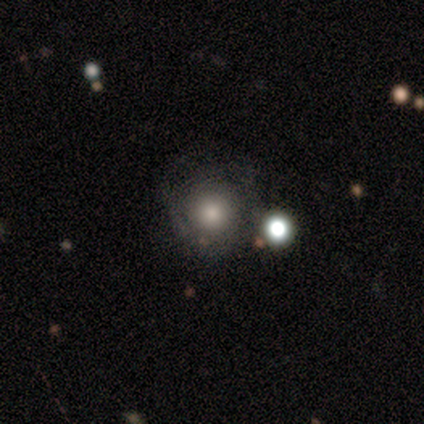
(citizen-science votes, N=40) This is likely a smooth galaxy (60%). How rounded: clearly round (96%). Merging: likely none (74%).